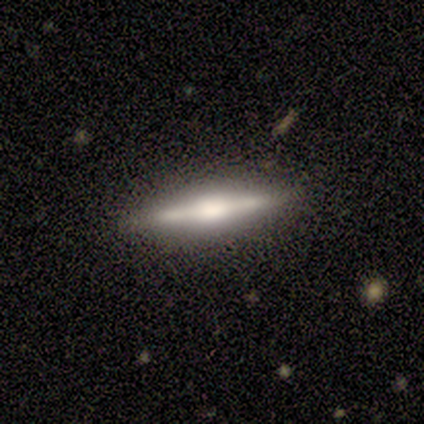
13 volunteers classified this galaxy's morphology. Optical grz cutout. It shows a featured or disk galaxy (54%) viewed edge-on (100%) with a boxy central bulge (43%, tied with rounded). Merging: none (91%).